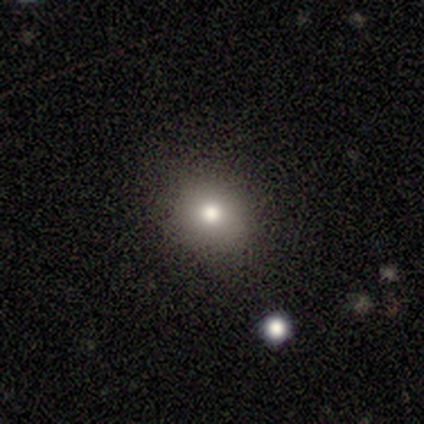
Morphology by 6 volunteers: Smooth or featured? smooth (67%)
How rounded? round (100%)
Merging? none (75%)